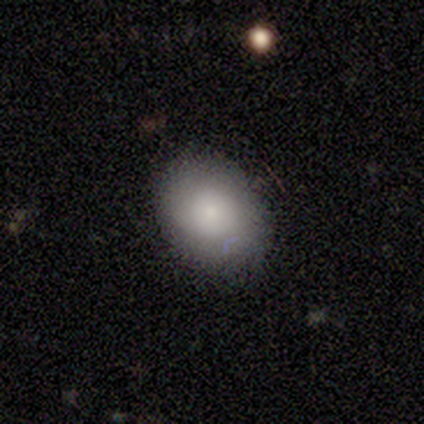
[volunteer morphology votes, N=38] Smooth or featured: smooth — 71% (featured or disk — 16%)
How rounded: in between — 63% (round — 37%)
Merging: none — 76% (minor disturbance — 18%)